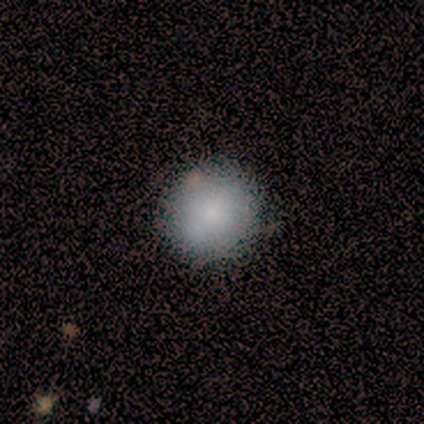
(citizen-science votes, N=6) A smooth galaxy with no disk features (83%) that is round (100%).

Vote fractions:
- Smooth or featured? smooth: 83% / featured or disk: 17% / star or artifact: 0%
- How rounded? round: 100% / in between: 0% / cigar-shaped: 0%
- Merging? none: 67% / minor disturbance: 33% / major disturbance: 0% / merger: 0%